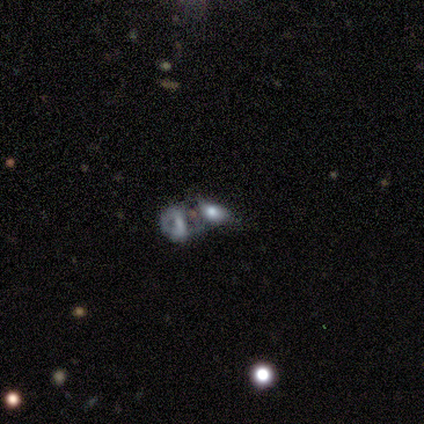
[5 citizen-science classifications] Q: Smooth or featured?
A: smooth (40%); tied with: featured or disk (40%)
Q: How rounded?
A: in between (100%)
Q: Merging?
A: merger (100%)